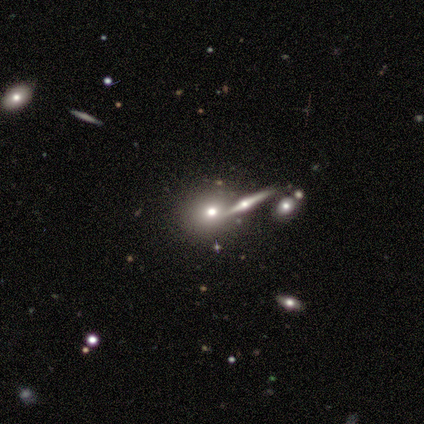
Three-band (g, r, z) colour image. It shows a smooth galaxy with no disk features (40%, tied with featured or disk) that is round (50%, tied with in between). Merging: none (75%).